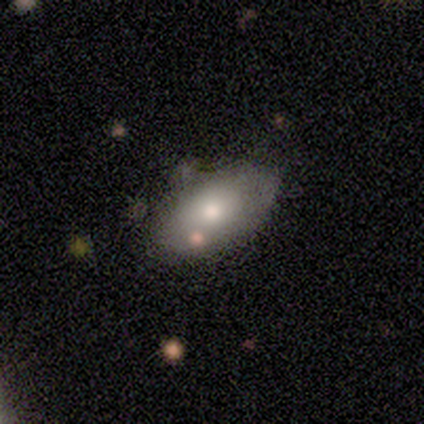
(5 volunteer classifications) Smooth or featured? 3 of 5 (60%) said smooth. How rounded? 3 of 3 (100%) said in between. Merging? 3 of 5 (60%) said none.